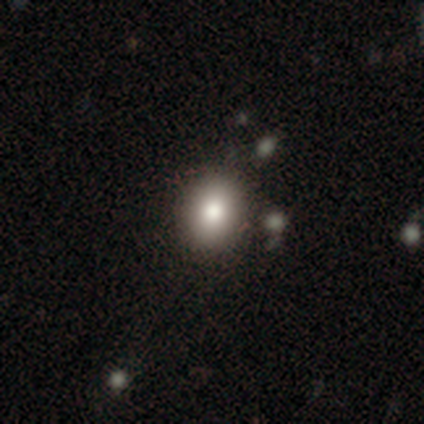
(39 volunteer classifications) A smooth galaxy with no disk features (77%) that is round (70%). Merging: none (62%).